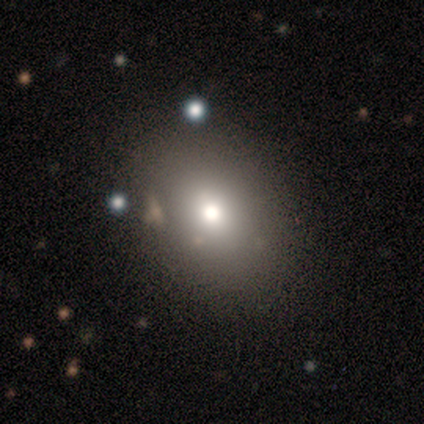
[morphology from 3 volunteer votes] Overall: smooth (67%; featured or disk 33%). How rounded: round (50%, tied with in between). Merging: none (67%; minor disturbance 33%).